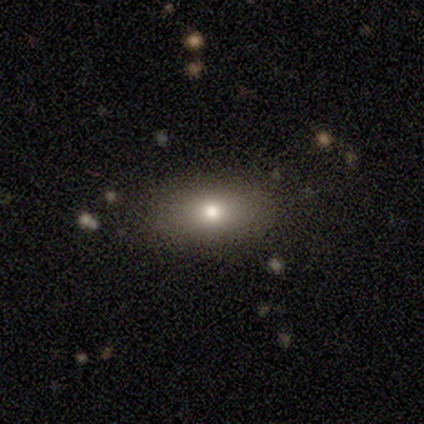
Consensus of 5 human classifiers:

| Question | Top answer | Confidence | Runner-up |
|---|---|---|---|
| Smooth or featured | smooth | 80% | star or artifact (20%) |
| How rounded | in between | 75% | round (25%) |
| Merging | none | 100% | — |